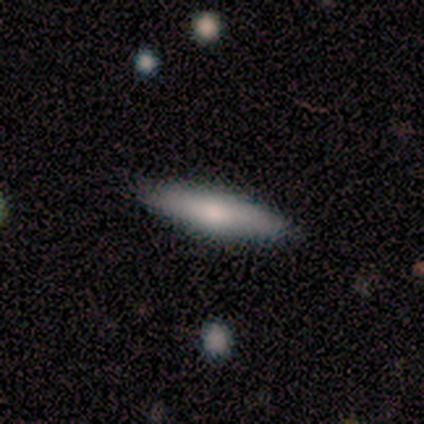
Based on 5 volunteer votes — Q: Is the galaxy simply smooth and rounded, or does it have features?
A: smooth — 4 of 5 (80%).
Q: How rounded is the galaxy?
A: cigar-shaped — 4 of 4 (100%).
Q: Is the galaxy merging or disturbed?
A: none — 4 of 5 (80%).